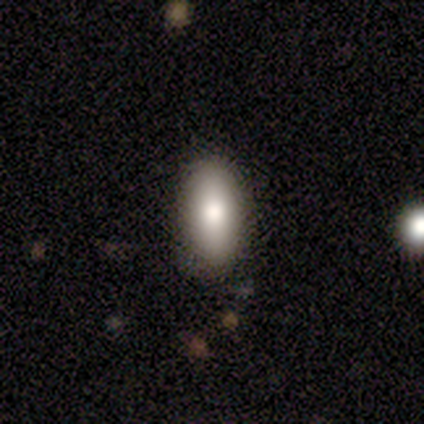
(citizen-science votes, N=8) Q: Smooth or featured?
A: smooth (88%); runner-up: featured or disk (12%)
Q: How rounded?
A: in between (86%); runner-up: round (14%)
Q: Merging?
A: none (100%)